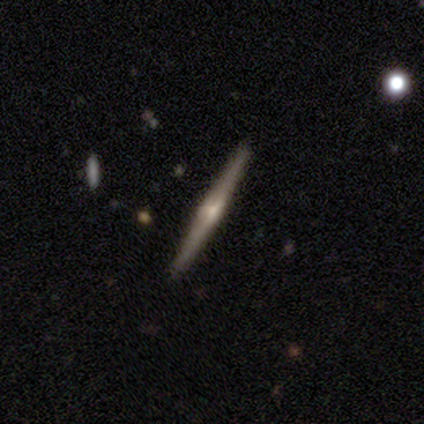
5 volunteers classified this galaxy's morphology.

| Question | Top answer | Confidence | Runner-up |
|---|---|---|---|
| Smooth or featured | featured or disk | 80% | smooth (20%) |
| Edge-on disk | yes | 100% | — |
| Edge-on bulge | rounded | 75% | boxy (25%) |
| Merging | none | 100% | — |